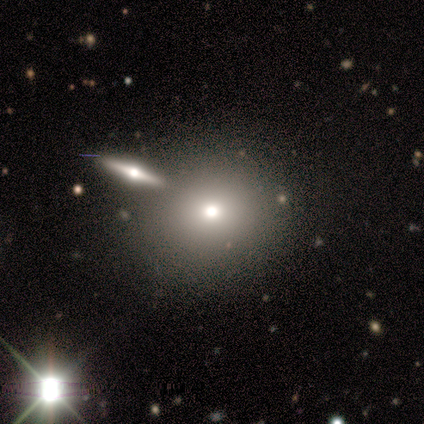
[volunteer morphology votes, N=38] Volunteers were most divided on "smooth or featured": smooth: 61%, featured or disk: 29%, star or artifact: 11%. More confident: how rounded — round (87%); merging — none (68%).